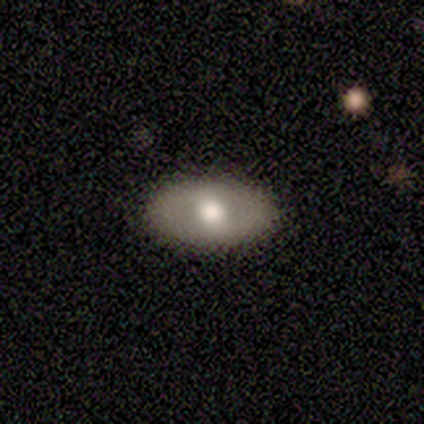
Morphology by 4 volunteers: Smooth or featured: smooth — 50% (tied with featured or disk — 50%)
How rounded: in between — 100%
Merging: none — 100%